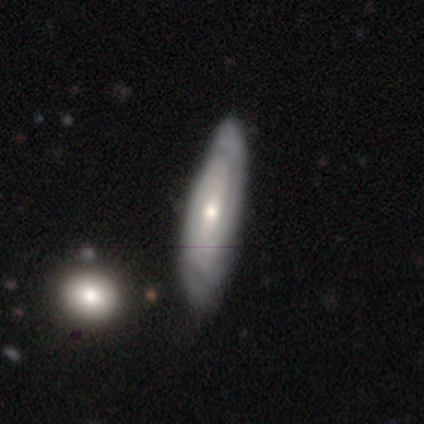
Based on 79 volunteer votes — smooth_or_featured: featured or disk (p=0.75) [alt: smooth p=0.22]
disk_edge_on: no (p=0.81) [alt: yes p=0.19]
bar: no (p=0.67) [alt: weak p=0.29]
has_spiral_arms: yes (p=0.96) [alt: no p=0.04]
spiral_winding: tight (p=0.61) [alt: medium p=0.28]
spiral_arm_count: can't tell (p=0.50) [alt: 2 p=0.30]
bulge_size: moderate (p=0.52) [alt: small p=0.46]
merging: none (p=0.32) [alt: minor disturbance p=0.17]